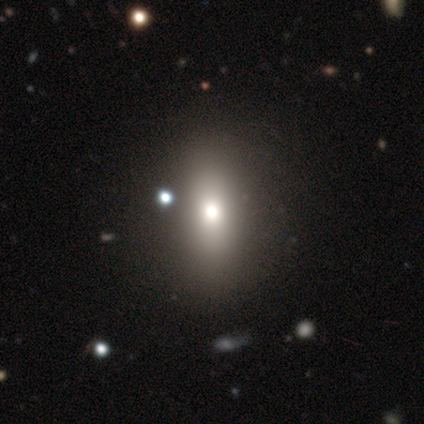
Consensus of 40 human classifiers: smooth 68%, featured or disk 22%, star or artifact 10%. Down the decision tree: how rounded — in between (78%); merging — none (69%).